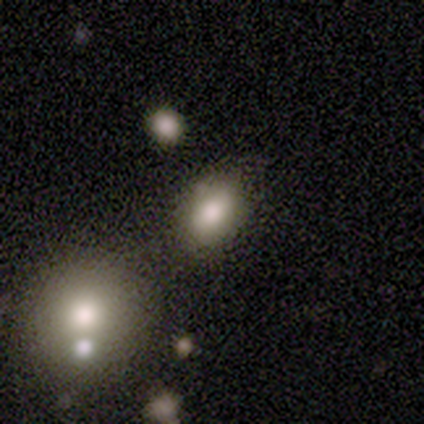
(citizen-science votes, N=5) Morphology: type=smooth (60%); roundness=in between (100%); merging=none (60%).